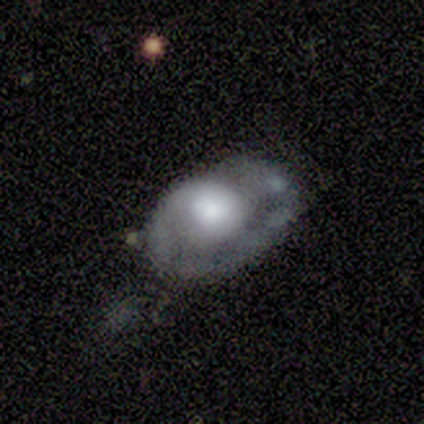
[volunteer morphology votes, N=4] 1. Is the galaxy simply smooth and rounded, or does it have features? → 75% smooth, 25% featured or disk, 0% star or artifact.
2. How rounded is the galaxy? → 100% in between, 0% round, 0% cigar-shaped.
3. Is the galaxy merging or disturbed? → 50% none, 25% minor disturbance, 25% major disturbance, 0% merger.